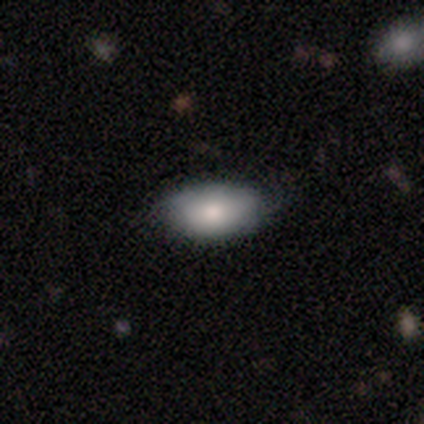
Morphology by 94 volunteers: Smooth or featured? 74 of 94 (79%) said smooth. How rounded? 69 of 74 (93%) said in between. Merging? 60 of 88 (68%) said none.